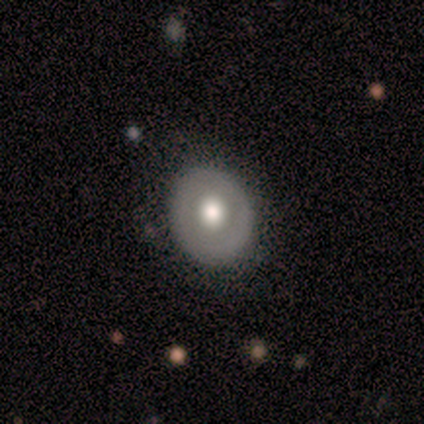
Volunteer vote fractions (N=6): A featured or disk galaxy (67%) with no bar (100%), no spiral arms (100%) and a moderate central bulge (100%). Merging: none (83%).